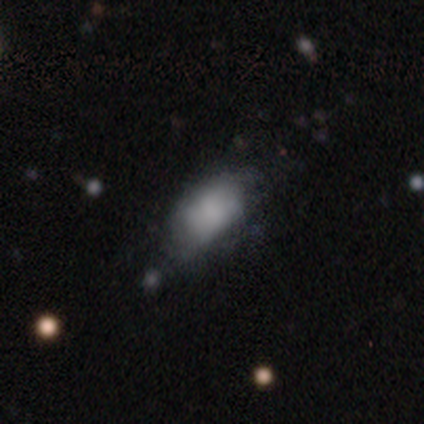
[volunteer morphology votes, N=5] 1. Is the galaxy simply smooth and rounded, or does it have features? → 60% smooth, 40% featured or disk, 0% star or artifact.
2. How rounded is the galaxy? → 100% in between, 0% round, 0% cigar-shaped.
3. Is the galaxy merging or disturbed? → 40% none (tied), 40% minor disturbance (tied), 20% major disturbance, 0% merger.